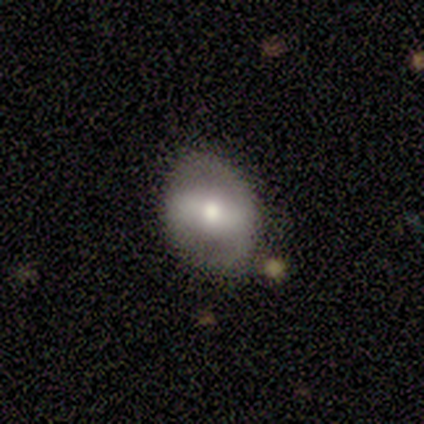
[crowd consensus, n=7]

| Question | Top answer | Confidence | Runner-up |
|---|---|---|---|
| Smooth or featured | featured or disk | 71% | smooth (14%) |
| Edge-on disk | no | 100% | — |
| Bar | strong | 60% | no (40%) |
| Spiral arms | no | 60% | yes (40%) |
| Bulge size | moderate | 60% | small (40%) |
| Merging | none | 67% | minor disturbance (33%) |